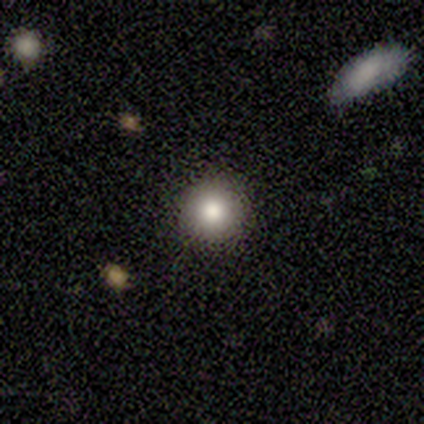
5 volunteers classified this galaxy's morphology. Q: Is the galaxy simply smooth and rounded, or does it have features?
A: smooth — 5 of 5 (100%).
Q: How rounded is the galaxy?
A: round — 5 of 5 (100%).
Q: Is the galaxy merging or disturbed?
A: none — 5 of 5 (100%).